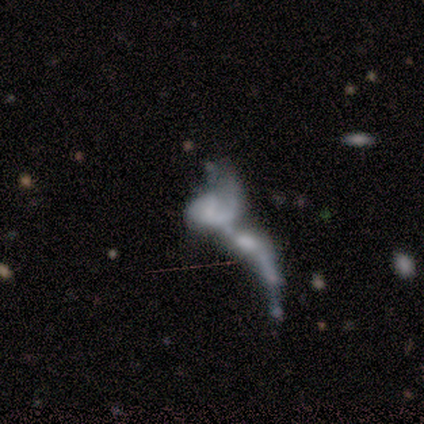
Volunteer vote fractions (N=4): Smooth or featured? 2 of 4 (50%) said featured or disk. Edge-on disk? 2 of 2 (100%) said no. Bar? 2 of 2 (100%) said no. Spiral arms? 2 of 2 (100%) said no. Bulge size? 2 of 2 (100%) said none. Merging? 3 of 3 (100%) said merger.